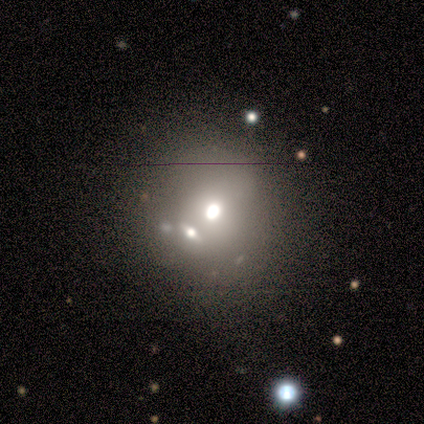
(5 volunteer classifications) A smooth galaxy with no disk features (60%) that is round (67%).

Vote fractions:
- Smooth or featured? smooth: 60% / featured or disk: 20% / star or artifact: 20%
- How rounded? round: 67% / in between: 33% / cigar-shaped: 0%
- Merging? none: 75% / merger: 25% / minor disturbance: 0% / major disturbance: 0%